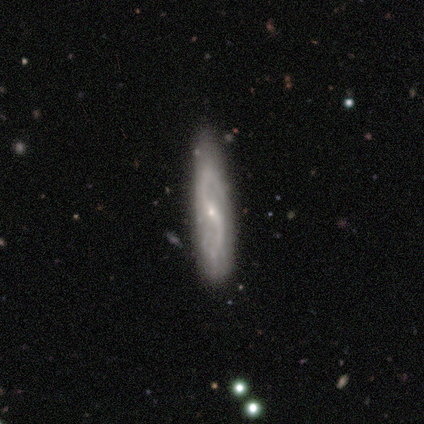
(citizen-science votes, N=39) Volunteers were most divided on "bar": weak: 44%, no: 30%, strong: 26%. More confident: spiral arm count — 2 (96%); bulge size — small (93%); spiral arms — yes (89%); smooth or featured — featured or disk (87%); edge-on disk — no (79%); merging — none (70%); spiral winding — loose (67%).